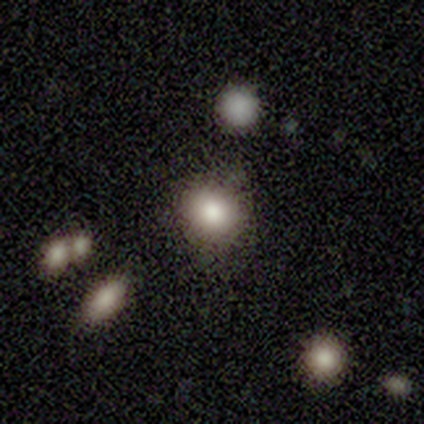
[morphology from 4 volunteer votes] Smooth or featured: smooth — 75% (featured or disk — 25%)
How rounded: round — 100%
Merging: none — 100%